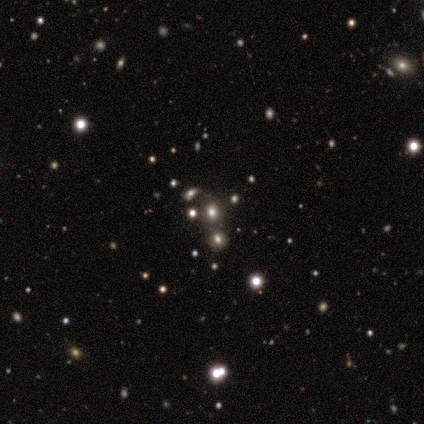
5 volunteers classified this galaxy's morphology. This is likely a star or artifact rather than a galaxy (60%).